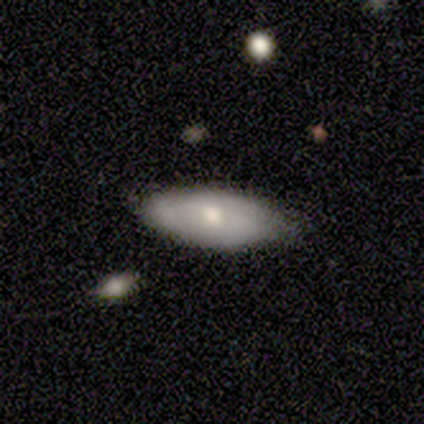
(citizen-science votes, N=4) Smooth or featured? smooth (100%)
How rounded? in between (75%)
Merging? minor disturbance (50%)